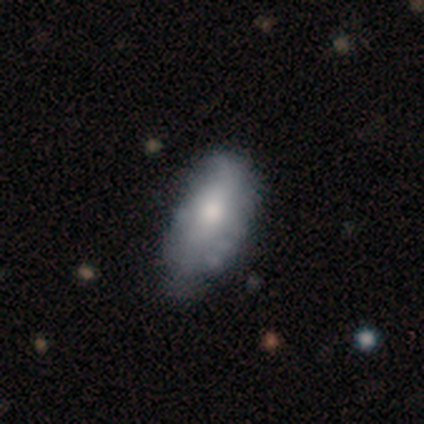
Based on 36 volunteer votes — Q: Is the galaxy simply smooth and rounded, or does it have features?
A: smooth — 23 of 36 (64%).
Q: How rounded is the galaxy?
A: in between — 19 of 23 (83%).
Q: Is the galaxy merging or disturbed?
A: minor disturbance — 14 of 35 (40%).